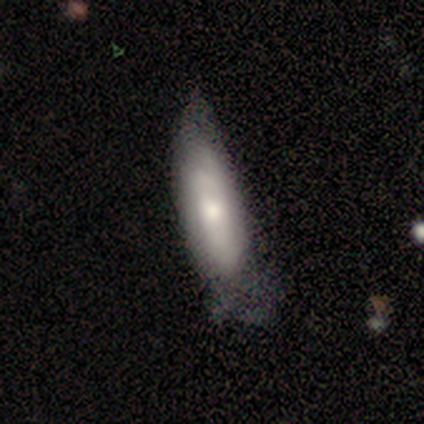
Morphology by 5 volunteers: This appears to be a smooth galaxy with no disk features (80%) that is cigar-shaped (75%). Merging: minor disturbance (80%).